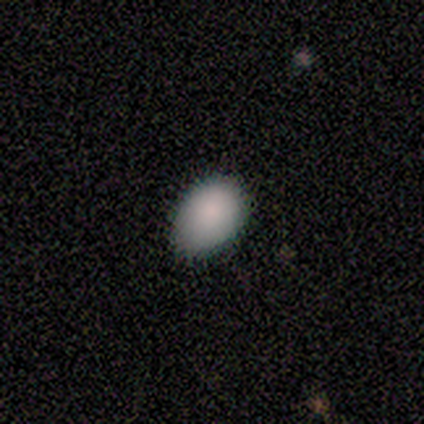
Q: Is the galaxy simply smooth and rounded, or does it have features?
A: smooth — 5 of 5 (100%).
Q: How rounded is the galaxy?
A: in between — 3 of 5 (60%).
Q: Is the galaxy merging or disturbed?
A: none — 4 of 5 (80%).